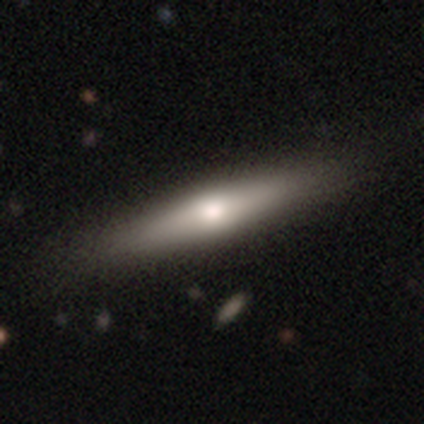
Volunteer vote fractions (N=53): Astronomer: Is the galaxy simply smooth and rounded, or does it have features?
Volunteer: smooth — 57% (runner-up: featured or disk, 36%).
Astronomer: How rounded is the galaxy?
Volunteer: cigar-shaped — 90%.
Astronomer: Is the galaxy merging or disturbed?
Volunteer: none — 90%.